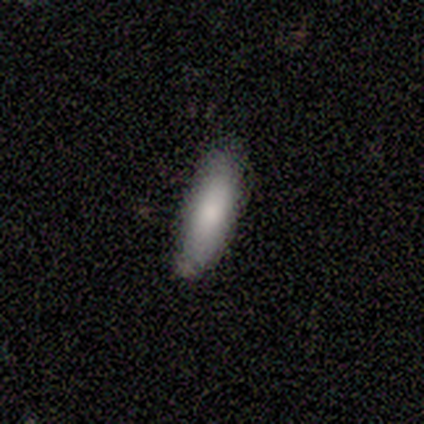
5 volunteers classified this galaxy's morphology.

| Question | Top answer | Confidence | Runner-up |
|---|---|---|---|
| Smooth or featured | smooth | 100% | — |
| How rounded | cigar-shaped | 80% | in between (20%) |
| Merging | none | 80% | minor disturbance (20%) |